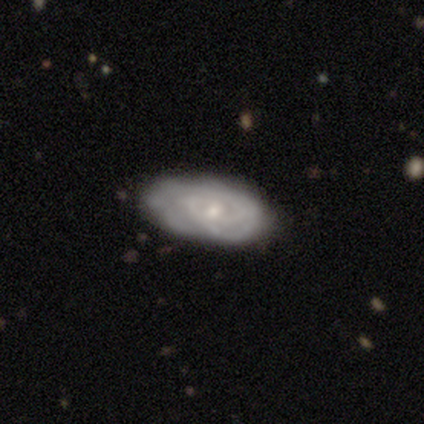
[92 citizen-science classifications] Smooth or featured? featured or disk (71%)
Edge-on disk? no (92%)
Bar? no (67%)
Spiral arms? yes (83%)
Spiral winding? tight (80%)
Spiral arm count? can't tell (38%)
Bulge size? small (65%)
Merging? none (64%)